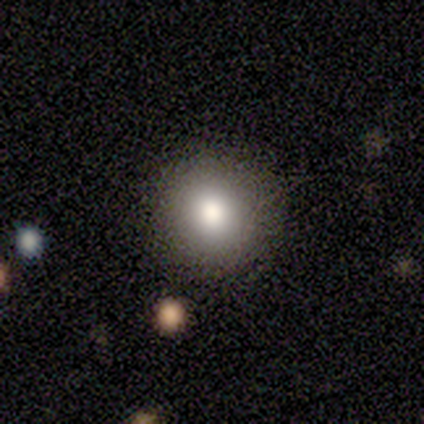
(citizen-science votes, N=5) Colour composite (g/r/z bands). It shows a smooth galaxy with no disk features (100%) that is round (80%). Merging: none (60%).